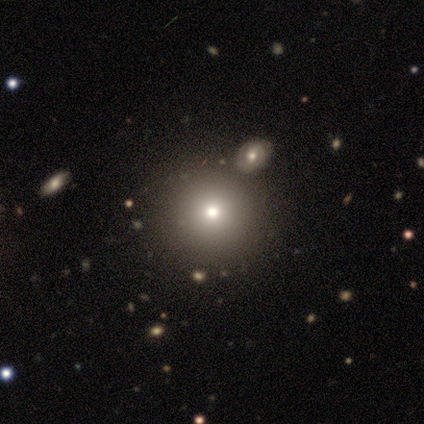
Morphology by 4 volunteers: Volunteers were most divided on "smooth or featured" (2-way tie): smooth: 50%, star or artifact: 50%, featured or disk: 0%. More confident: how rounded — round (100%); merging — none (100%).